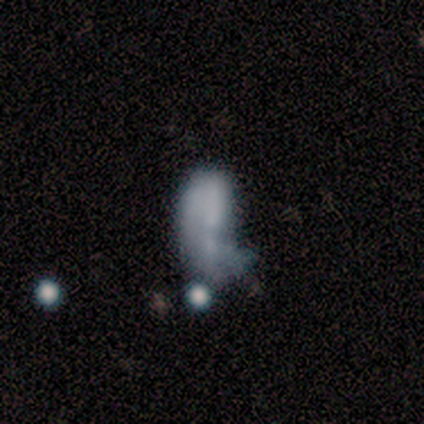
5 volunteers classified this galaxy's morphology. Smooth or featured? featured or disk (80%)
Edge-on disk? no (100%)
Bar? no (100%)
Spiral arms? no (100%)
Bulge size? none (100%)
Merging? minor disturbance (40%, tied with major disturbance)